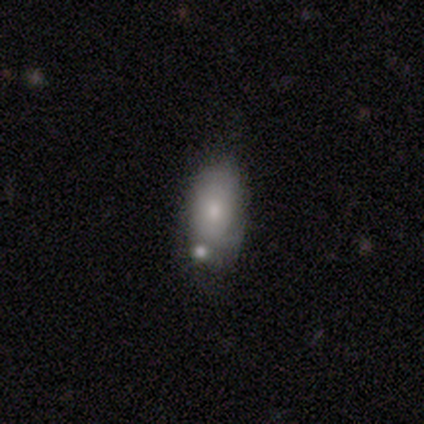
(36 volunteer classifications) Smooth or featured: smooth — 75% (featured or disk — 19%)
How rounded: in between — 89% (cigar-shaped — 7%)
Merging: merger — 53%